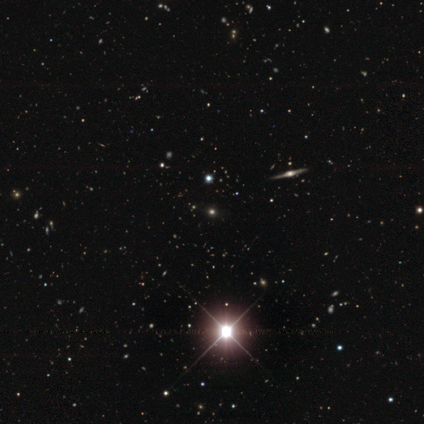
Smooth or featured: star or artifact — 74% (smooth — 16%)